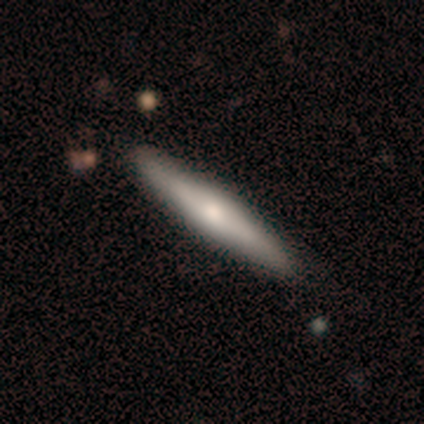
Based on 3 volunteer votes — Smooth or featured?
  - featured or disk: 100% *
  - smooth: 0%
  - star or artifact: 0%
Edge-on disk?
  - yes: 100% *
  - no: 0%
Edge-on bulge?
  - rounded: 100% *
  - boxy: 0%
  - none: 0%
Merging?
  - none: 67% *
  - minor disturbance: 33%
  - major disturbance: 0%
  - merger: 0%